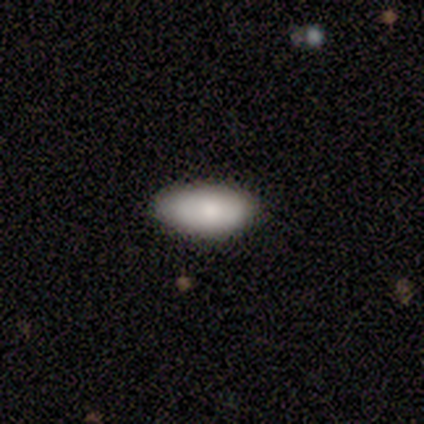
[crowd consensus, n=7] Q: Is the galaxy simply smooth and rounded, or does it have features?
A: smooth — 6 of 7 (86%).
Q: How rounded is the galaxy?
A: in between — 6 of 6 (100%).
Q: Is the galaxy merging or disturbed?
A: none — 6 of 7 (86%).